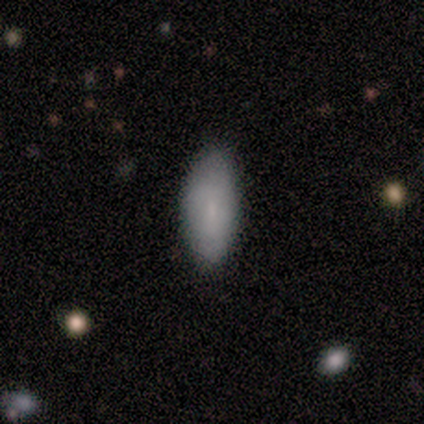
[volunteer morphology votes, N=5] Smooth or featured? 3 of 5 (60%) said featured or disk. Edge-on disk? 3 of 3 (100%) said no. Bar? 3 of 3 (100%) said weak. Spiral arms? 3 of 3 (100%) said no. Bulge size? 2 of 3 (67%) said none. Merging? 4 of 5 (80%) said none.